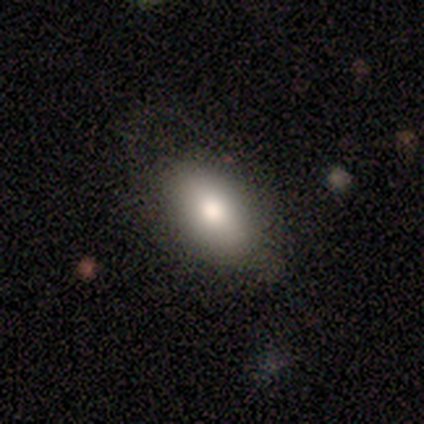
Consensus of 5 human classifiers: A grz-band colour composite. It shows a smooth galaxy with no disk features (80%) that is in between round and cigar-shaped (100%). Merging: none (80%).